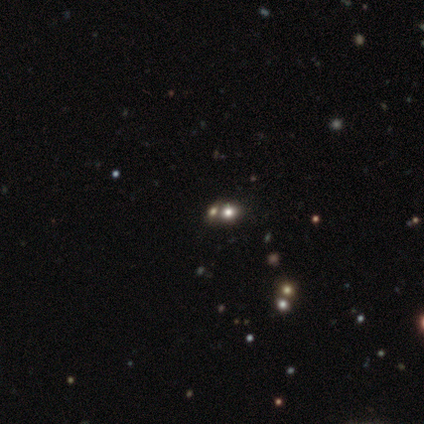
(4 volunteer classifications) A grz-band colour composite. It shows a smooth galaxy with no disk features (100%) that is round (75%). Merging: none (50%, tied with merger).